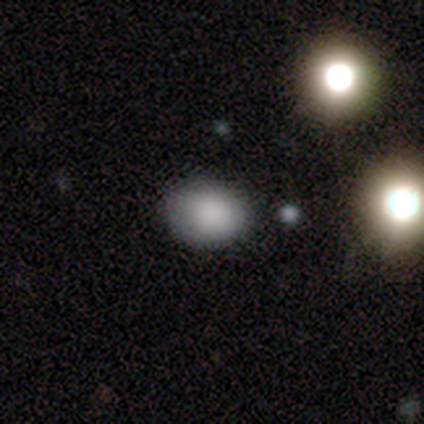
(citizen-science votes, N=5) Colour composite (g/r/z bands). It shows a smooth galaxy with no disk features (80%) that is in between round and cigar-shaped (75%). Merging: none (100%).